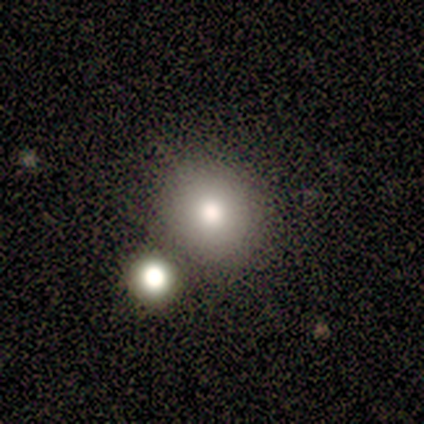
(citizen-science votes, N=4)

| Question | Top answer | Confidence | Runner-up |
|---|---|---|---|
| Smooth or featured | smooth | 75% | featured or disk (25%) |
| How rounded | round | 67% | in between (33%) |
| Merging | none | 50% | tied: minor disturbance (50%) |